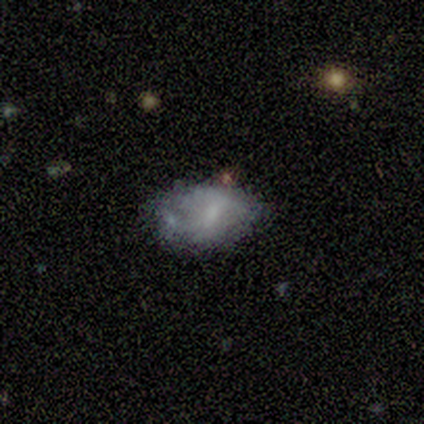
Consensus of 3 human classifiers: smooth_or_featured: featured or disk (p=0.67) [alt: star or artifact p=0.33]
disk_edge_on: no (p=1.00)
bar: weak (p=0.50) [tied with: no p=0.50]
has_spiral_arms: no (p=1.00)
bulge_size: moderate (p=0.50) [tied with: small p=0.50]
merging: none (p=0.50) [tied with: merger p=0.50]